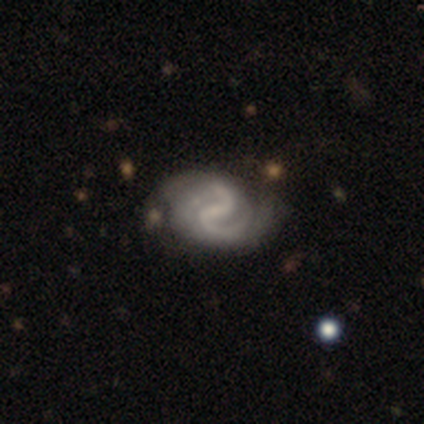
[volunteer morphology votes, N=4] This appears to be a featured or disk galaxy (100%) with a weak bar (50%), 2 (100%) medium (50%) spiral arms (100%) and a small central bulge (50%, tied with none). Merging: none (50%).